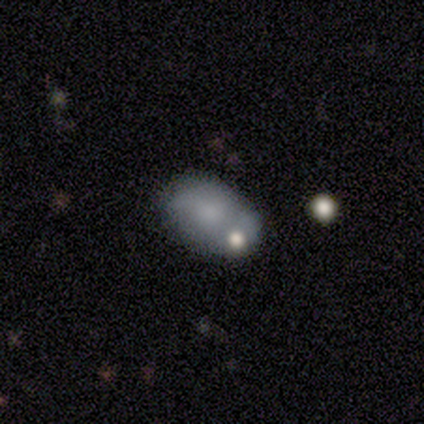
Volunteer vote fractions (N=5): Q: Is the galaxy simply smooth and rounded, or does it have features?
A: smooth — 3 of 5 (60%).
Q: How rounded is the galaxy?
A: in between — 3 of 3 (100%).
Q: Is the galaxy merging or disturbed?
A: minor disturbance — 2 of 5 (40%, tied with merger).